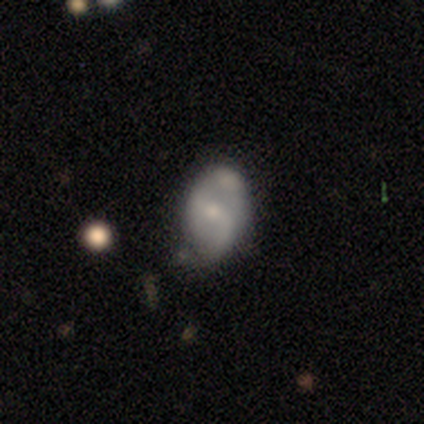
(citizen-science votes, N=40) featured or disk 62%, smooth 30%, star or artifact 8%. Down the decision tree: edge-on disk — no (92%); bar — strong (35%, tied with weak); spiral arms — yes (70%); spiral arm count — 2 (88%); spiral winding — loose (38%); bulge size — small (52%); merging — none (41%).